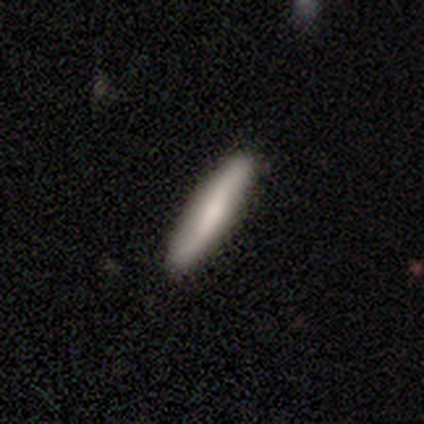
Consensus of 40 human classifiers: This appears to be a smooth galaxy with no disk features (75%) that is cigar-shaped (93%). Merging: none (74%).